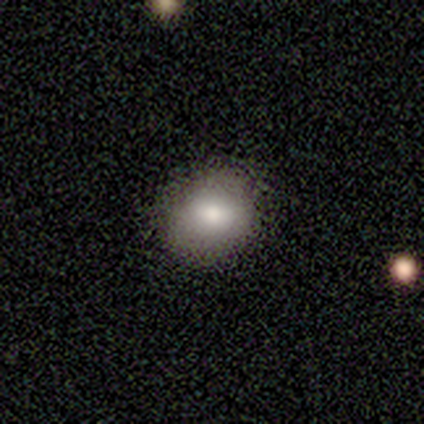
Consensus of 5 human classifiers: Smooth or featured? smooth (80%)
How rounded? round (75%)
Merging? none (100%)